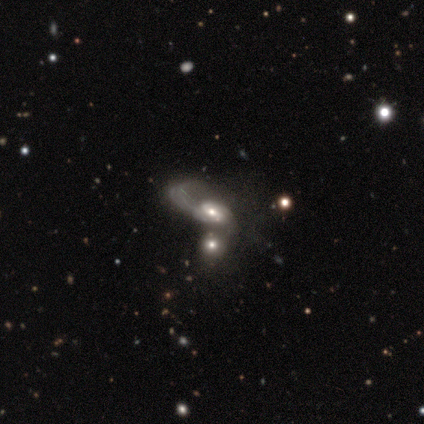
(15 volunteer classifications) Volunteers were most divided on "bulge size": moderate: 55%, large: 27%, small: 18%, dominant: 0%, none: 0%. More confident: edge-on disk — no (100%); bar — no (91%); spiral arms — yes (91%); spiral arm count — 1 (90%); spiral winding — loose (80%); smooth or featured — featured or disk (73%); merging — merger (57%).